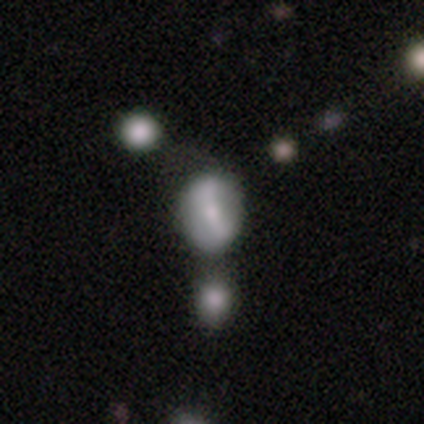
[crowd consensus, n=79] This appears to be a smooth galaxy with no disk features (49%) that is in between round and cigar-shaped (62%). Merging: merger (30%).